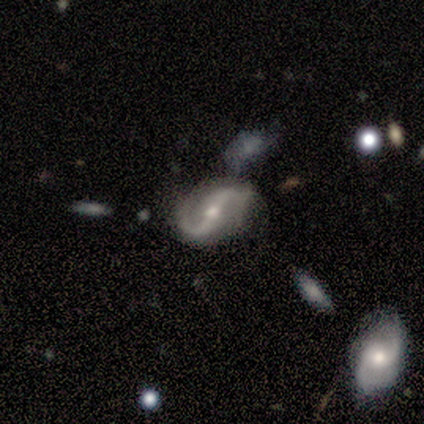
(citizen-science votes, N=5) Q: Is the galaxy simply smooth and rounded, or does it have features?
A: featured or disk — 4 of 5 (80%).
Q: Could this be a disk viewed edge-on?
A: no — 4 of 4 (100%).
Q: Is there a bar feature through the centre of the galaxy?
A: strong — 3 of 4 (75%).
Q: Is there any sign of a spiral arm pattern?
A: yes — 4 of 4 (100%).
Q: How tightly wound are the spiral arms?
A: medium — 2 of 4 (50%, tied with loose).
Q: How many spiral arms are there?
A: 2 — 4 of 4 (100%).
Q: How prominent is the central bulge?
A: moderate — 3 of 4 (75%).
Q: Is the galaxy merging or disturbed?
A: none — 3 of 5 (60%).